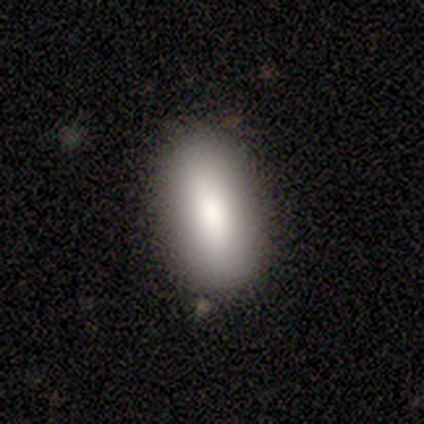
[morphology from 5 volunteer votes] smooth_or_featured: smooth (p=0.80) [alt: star or artifact p=0.20]
how_rounded: in between (p=1.00)
merging: none (p=1.00)